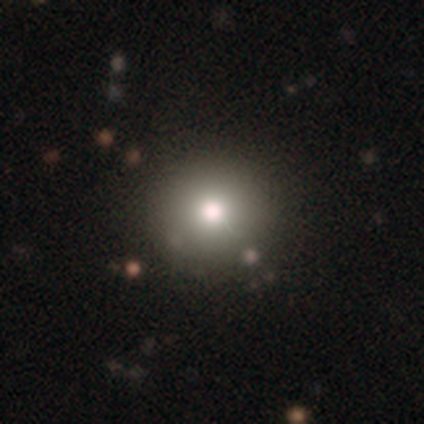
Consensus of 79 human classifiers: Morphology: type=smooth (78%); roundness=round (98%); merging=none (44%).